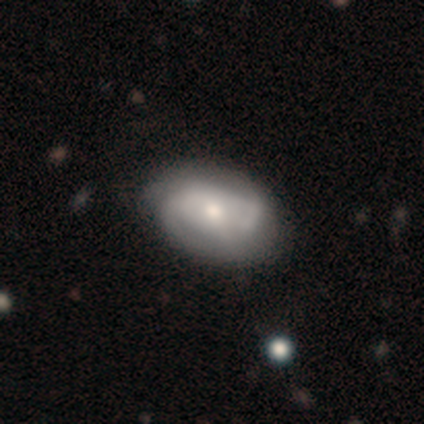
featured or disk 57%, smooth 43%, star or artifact 0%. Down the decision tree: edge-on disk — no (100%); bar — no (75%); spiral arms — yes (100%); spiral arm count — 2 (75%); spiral winding — tight (50%, tied with medium); bulge size — small (50%); merging — none (57%).